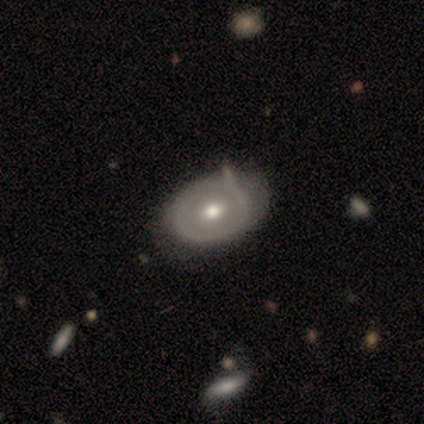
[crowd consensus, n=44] Smooth or featured? 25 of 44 (57%) said featured or disk. Edge-on disk? 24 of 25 (96%) said no. Bar? 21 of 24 (88%) said no. Spiral arms? 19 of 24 (79%) said no. Bulge size? 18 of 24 (75%) said moderate. Merging? 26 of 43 (60%) said none.